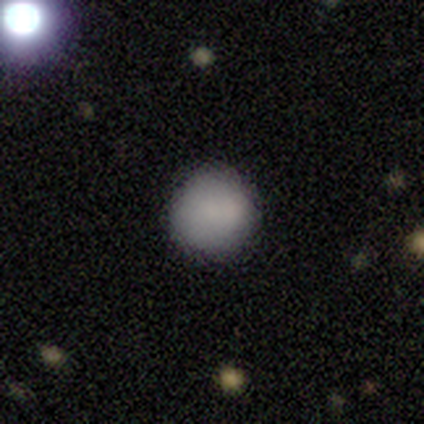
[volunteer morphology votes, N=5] This is clearly a smooth galaxy (80%). How rounded: clearly round (100%). Merging: clearly none (80%).